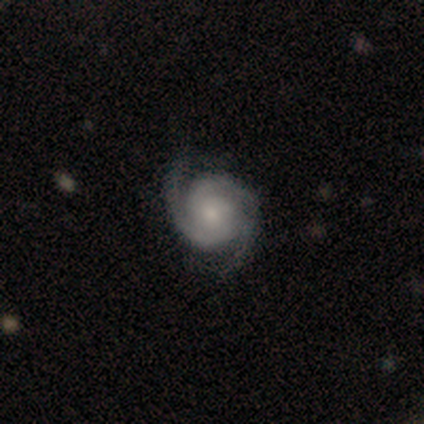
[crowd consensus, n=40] Volunteers were most divided on "bulge size" (2-way tie): moderate: 46%, small: 46%, large: 5%, none: 3%, dominant: 0%. More confident: edge-on disk — no (100%); smooth or featured — featured or disk (98%); spiral arms — yes (97%); bar — no (77%); spiral arm count — 2 (61%); merging — none (60%); spiral winding — tight (53%).